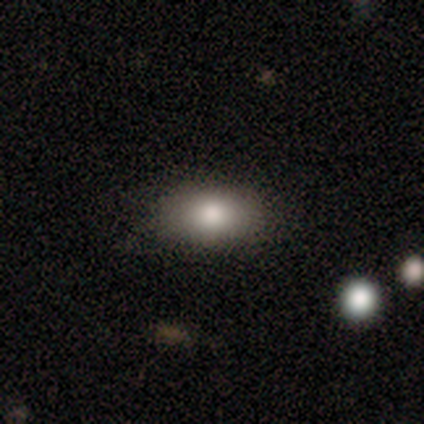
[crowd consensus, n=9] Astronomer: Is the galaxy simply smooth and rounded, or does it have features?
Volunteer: smooth — 78%.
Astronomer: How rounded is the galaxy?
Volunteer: in between — 100%.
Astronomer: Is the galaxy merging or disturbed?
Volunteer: none — 89%.